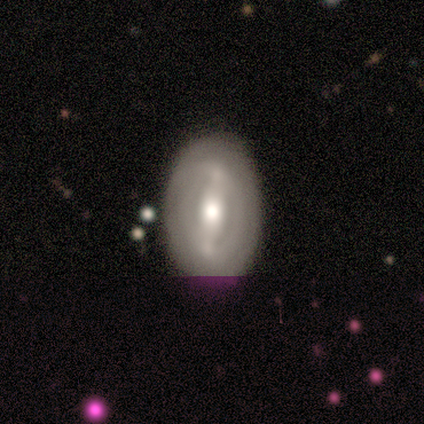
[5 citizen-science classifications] smooth-or-featured: featured or disk: 80% | smooth: 20% | star or artifact: 0%
  disk-edge-on: no: 75% | yes: 25%
    bar: weak: 67% | strong: 33% | no: 0%
    has-spiral-arms: no: 67% | yes: 33%
    bulge-size: moderate: 100% | dominant: 0% | large: 0% | small: 0% | none: 0%
  merging: none: 100% | minor disturbance: 0% | major disturbance: 0% | merger: 0%